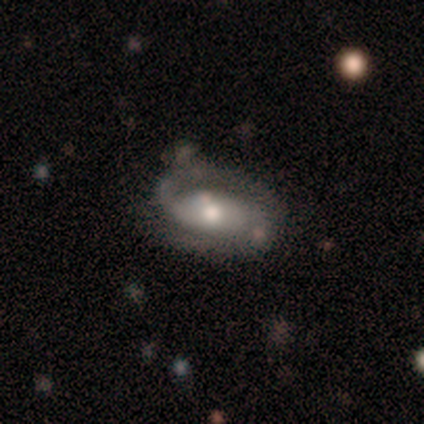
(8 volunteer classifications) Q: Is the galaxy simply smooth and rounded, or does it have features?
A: featured or disk — 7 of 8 (88%).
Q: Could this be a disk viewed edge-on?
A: no — 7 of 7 (100%).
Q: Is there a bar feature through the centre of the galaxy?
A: weak — 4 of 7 (57%).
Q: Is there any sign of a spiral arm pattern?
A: yes — 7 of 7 (100%).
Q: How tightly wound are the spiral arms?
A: medium — 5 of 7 (71%).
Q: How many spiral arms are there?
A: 2 — 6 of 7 (86%).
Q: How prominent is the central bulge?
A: moderate — 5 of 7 (71%).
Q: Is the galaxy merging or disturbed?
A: none — 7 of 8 (88%).